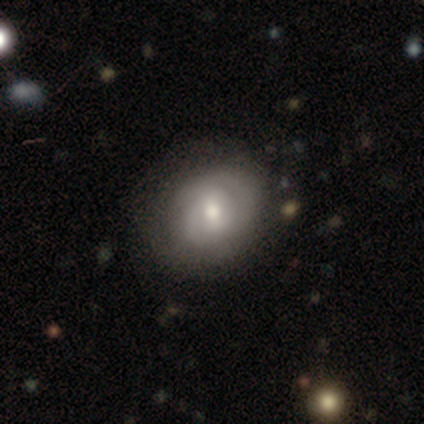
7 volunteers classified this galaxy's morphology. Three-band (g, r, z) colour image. It shows a featured or disk galaxy (71%) with a weak bar (80%), 2 (75%) tight (50%, tied with medium) spiral arms (80%) and a moderate central bulge (80%). Merging: none (57%).